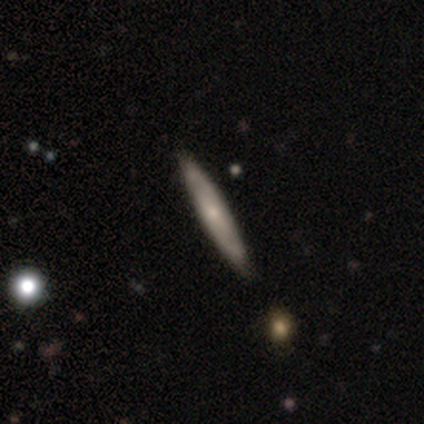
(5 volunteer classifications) Morphology: type=featured or disk (80%); edge-on=yes (50%, tied with no); edge-on bulge=none (50%, tied with rounded); merging=none (100%).